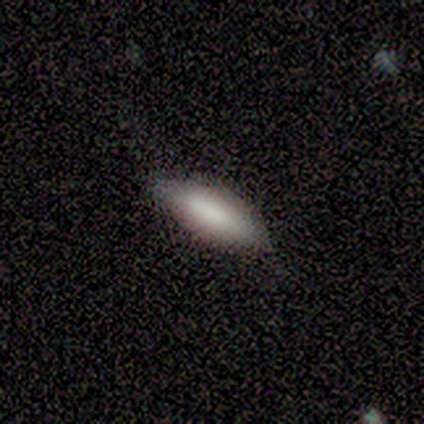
This appears to be a smooth galaxy with no disk features (64%) that is in between round and cigar-shaped (67%). Merging: none (67%).